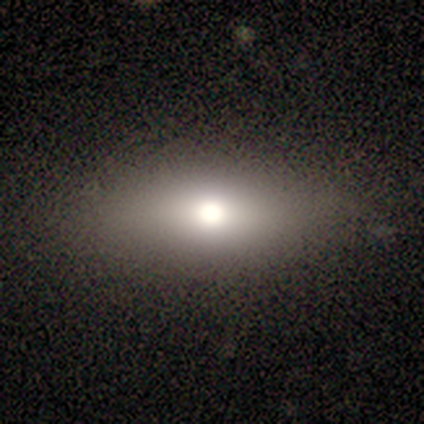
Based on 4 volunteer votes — smooth 50%, featured or disk 25%, star or artifact 25%. Down the decision tree: how rounded — in between (50%, tied with cigar-shaped); merging — none (100%).